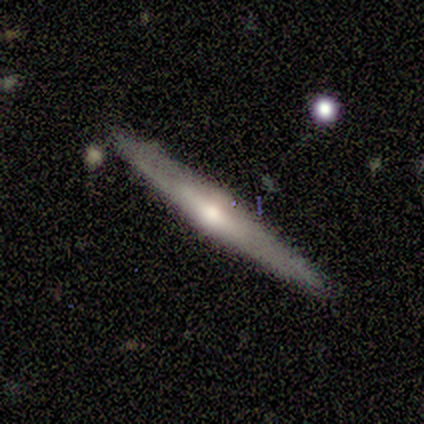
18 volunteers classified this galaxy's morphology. featured or disk 83%, smooth 17%, star or artifact 0%. Down the decision tree: edge-on disk — yes (93%); edge-on bulge — rounded (86%); merging — none (89%).